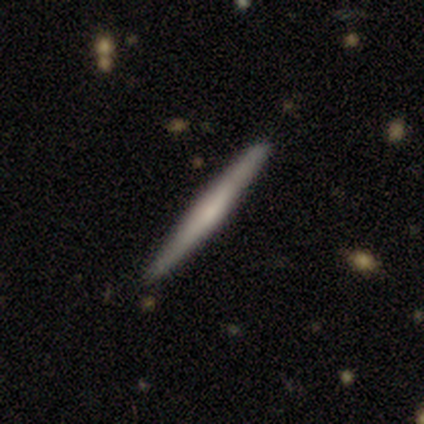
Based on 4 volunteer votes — Smooth or featured? smooth (50%, tied with featured or disk)
How rounded? cigar-shaped (100%)
Merging? none (100%)